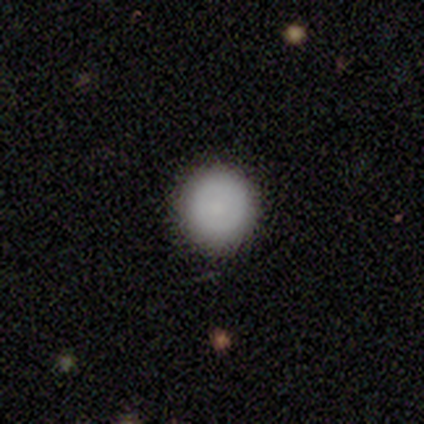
smooth_or_featured: smooth (p=0.80) [alt: featured or disk p=0.20]
how_rounded: round (p=1.00)
merging: none (p=0.80) [alt: major disturbance p=0.20]